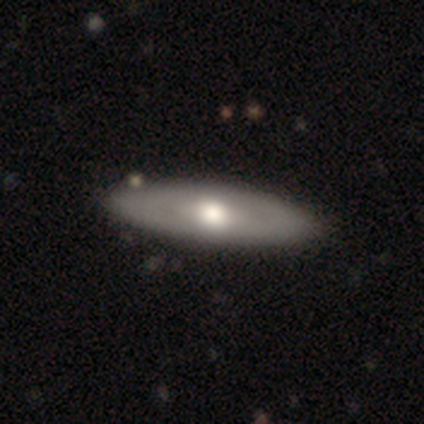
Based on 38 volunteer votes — Volunteers were most divided on "smooth or featured": smooth: 53%, featured or disk: 39%, star or artifact: 8%. More confident: how rounded — in between (65%); merging — none (60%).